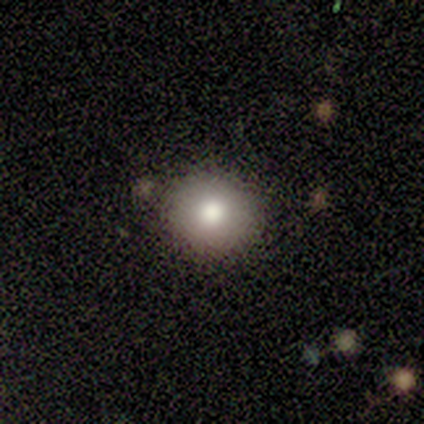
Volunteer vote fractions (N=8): Smooth or featured?
  - smooth: 75% *
  - star or artifact: 25%
  - featured or disk: 0%
How rounded?
  - round: 100% *
  - in between: 0%
  - cigar-shaped: 0%
Merging?
  - none: 100% *
  - minor disturbance: 0%
  - major disturbance: 0%
  - merger: 0%